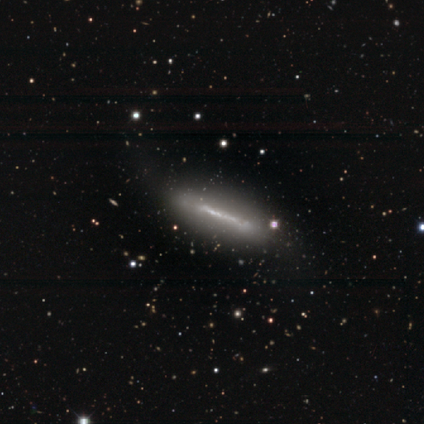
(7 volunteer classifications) Q: Smooth or featured?
A: featured or disk (71%); runner-up: smooth (29%)
Q: Edge-on disk?
A: yes (100%)
Q: Edge-on bulge?
A: none (100%)
Q: Merging?
A: none (57%); runner-up: minor disturbance (29%)